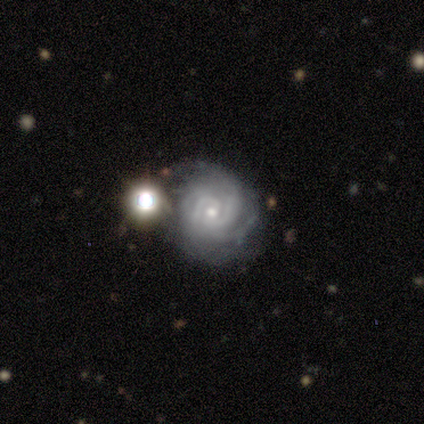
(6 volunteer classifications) Q: Smooth or featured?
A: featured or disk (100%)
Q: Edge-on disk?
A: no (100%)
Q: Bar?
A: weak (50%); tied with: no (50%)
Q: Spiral arms?
A: yes (100%)
Q: Spiral winding?
A: tight (50%); tied with: medium (50%)
Q: Spiral arm count?
A: can't tell (67%); runner-up: 3 (33%)
Q: Bulge size?
A: small (83%); runner-up: moderate (17%)
Q: Merging?
A: none (67%); runner-up: minor disturbance (17%)